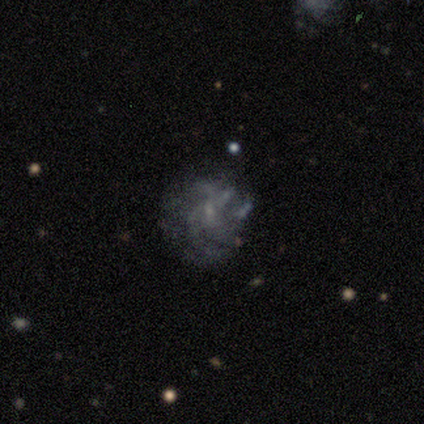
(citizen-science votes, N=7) Smooth or featured?
  - featured or disk: 71% *
  - smooth: 14%
  - star or artifact: 14%
Edge-on disk?
  - no: 100% *
  - yes: 0%
Bar?
  - no: 60% *
  - weak: 40%
  - strong: 0%
Spiral arms?
  - yes: 60% *
  - no: 40%
Spiral winding?
  - loose: 67% *
  - medium: 33%
  - tight: 0%
Spiral arm count?
  - can't tell: 67% *
  - 4: 33%
  - 1: 0%
  - 2: 0%
  - 3: 0%
  - more than 4: 0%
Bulge size?
  - none: 60% *
  - small: 40%
  - dominant: 0%
  - large: 0%
  - moderate: 0%
Merging?
  - major disturbance: 50% *
  - minor disturbance: 33%
  - none: 17%
  - merger: 0%